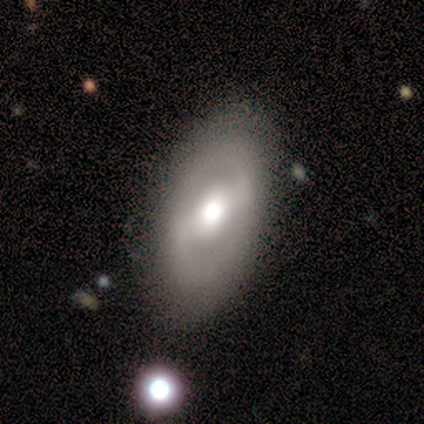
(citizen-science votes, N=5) Morphology: type=featured or disk (80%); edge-on=no (100%); bar=weak (75%); spiral arms=no (75%); bulge=moderate (75%); merging=none (80%).